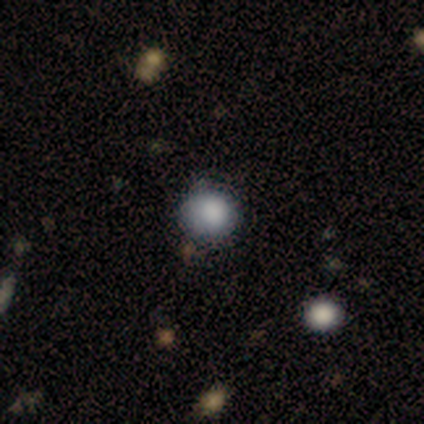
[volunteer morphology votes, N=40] Smooth or featured?
  - smooth: 80% *
  - star or artifact: 15%
  - featured or disk: 5%
How rounded?
  - round: 94% *
  - in between: 6%
  - cigar-shaped: 0%
Merging?
  - none: 71% *
  - minor disturbance: 24%
  - major disturbance: 6%
  - merger: 0%